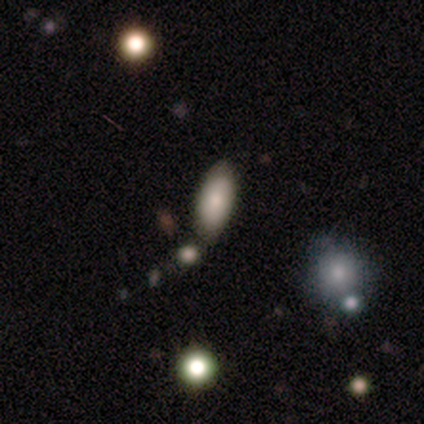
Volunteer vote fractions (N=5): Volunteers were most divided on "merging": none: 60%, minor disturbance: 20%, merger: 20%, major disturbance: 0%. More confident: how rounded — in between (100%); smooth or featured — smooth (80%).